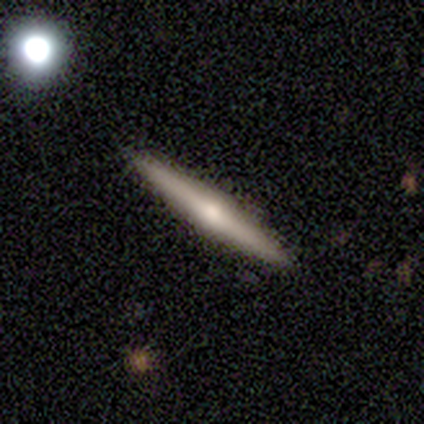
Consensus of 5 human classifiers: Smooth or featured: smooth — 40% (tied with star or artifact — 40%)
How rounded: cigar-shaped — 100%
Merging: none — 67% (minor disturbance — 33%)